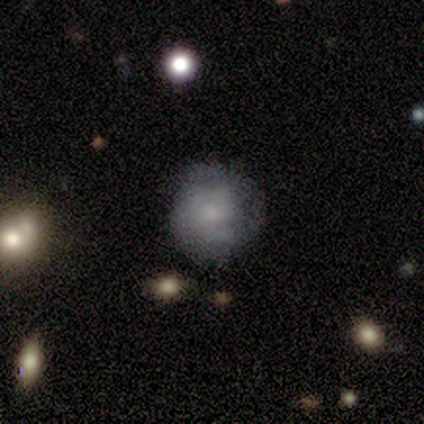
Smooth or featured: smooth — 49% (featured or disk — 44%)
How rounded: round — 79% (in between — 21%)
Merging: none — 72% (minor disturbance — 25%)